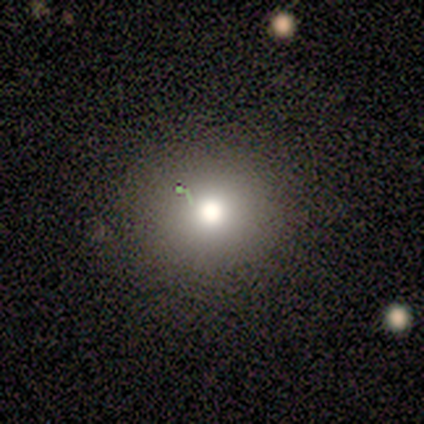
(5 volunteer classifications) Morphology: type=smooth (80%); roundness=round (100%); merging=none (75%).